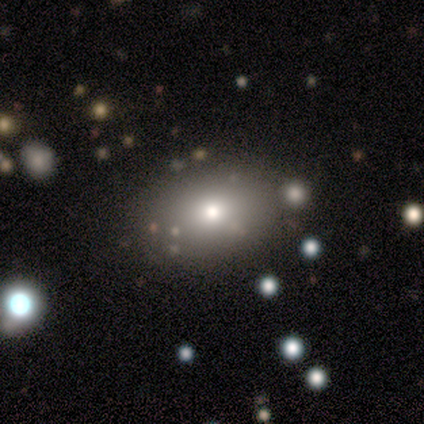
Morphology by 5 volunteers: Volunteers were most divided on "how rounded": in between: 75%, round: 25%, cigar-shaped: 0%. More confident: merging — none (100%); smooth or featured — smooth (80%).